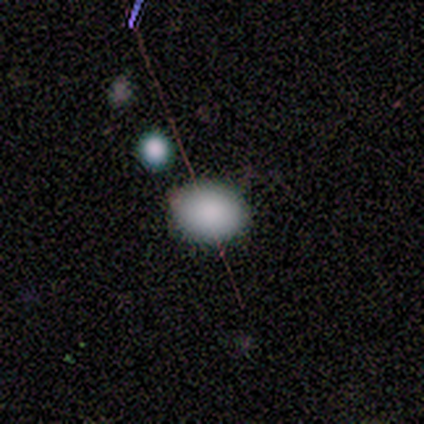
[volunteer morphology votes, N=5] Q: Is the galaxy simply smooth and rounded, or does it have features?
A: smooth — 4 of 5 (80%).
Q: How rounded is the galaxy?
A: round — 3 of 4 (75%).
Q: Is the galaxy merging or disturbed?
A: none — 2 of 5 (40%, tied with minor disturbance).